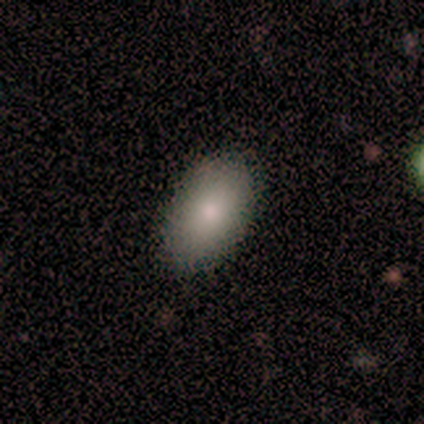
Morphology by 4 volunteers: Smooth or featured: smooth — 100%
How rounded: in between — 100%
Merging: none — 100%